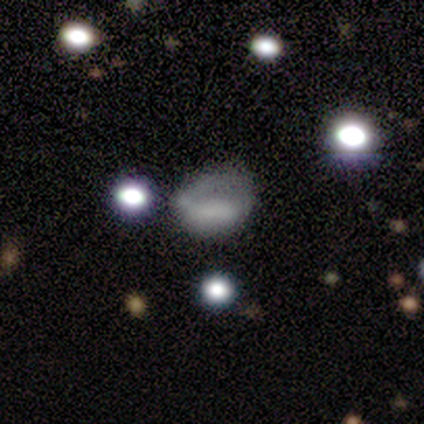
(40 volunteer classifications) This appears to be a smooth galaxy with no disk features (57%) that is in between round and cigar-shaped (74%). Merging: none (39%).